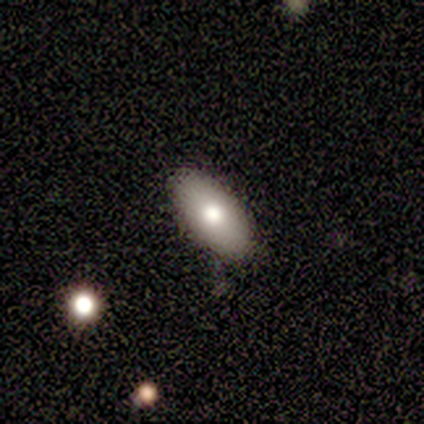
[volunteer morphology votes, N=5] Volunteers were most divided on "smooth or featured": smooth: 80%, featured or disk: 20%, star or artifact: 0%. More confident: how rounded — in between (100%); merging — none (100%).